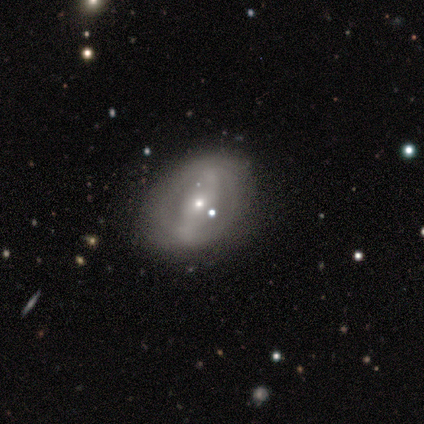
Q: Smooth or featured?
A: featured or disk (80%); runner-up: star or artifact (20%)
Q: Edge-on disk?
A: no (100%)
Q: Bar?
A: weak (75%); runner-up: strong (25%)
Q: Spiral arms?
A: no (75%); runner-up: yes (25%)
Q: Bulge size?
A: moderate (50%); tied with: small (50%)
Q: Merging?
A: none (75%); runner-up: minor disturbance (25%)